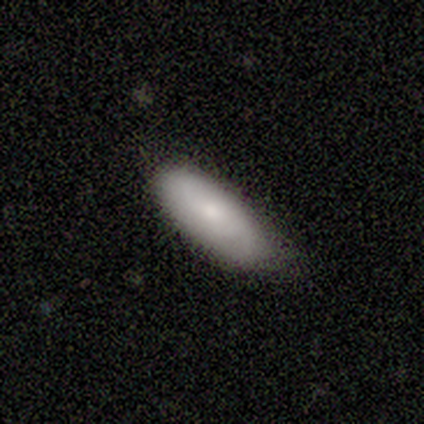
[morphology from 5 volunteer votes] This is clearly a smooth galaxy (100%). How rounded: clearly in between (80%). Merging: likely none (60%).